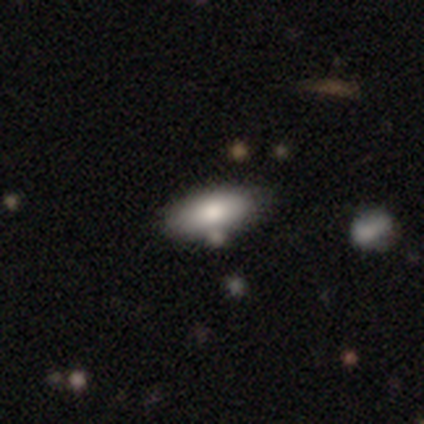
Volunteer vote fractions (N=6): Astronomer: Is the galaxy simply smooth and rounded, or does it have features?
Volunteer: smooth — 100%.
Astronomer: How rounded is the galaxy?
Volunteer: in between — 100%.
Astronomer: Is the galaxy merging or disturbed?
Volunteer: none — 83%.